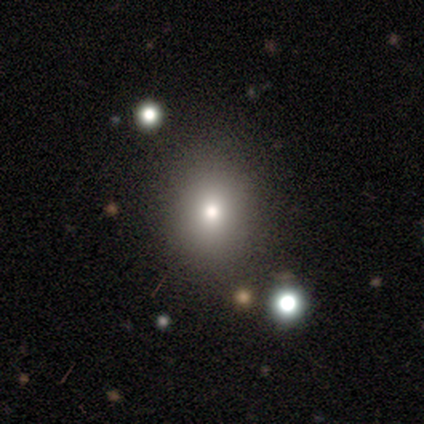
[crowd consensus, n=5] smooth_or_featured: star or artifact (p=0.60) [alt: smooth p=0.40]